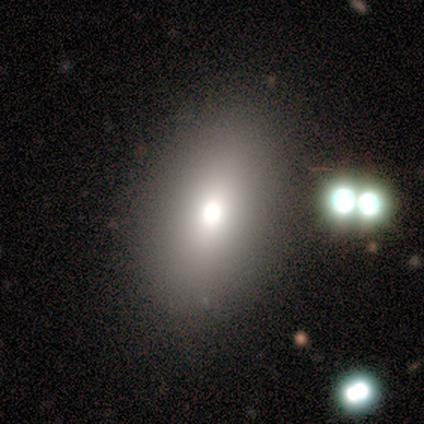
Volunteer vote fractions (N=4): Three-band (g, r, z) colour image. It shows a star or artifact, not a galaxy (75%).